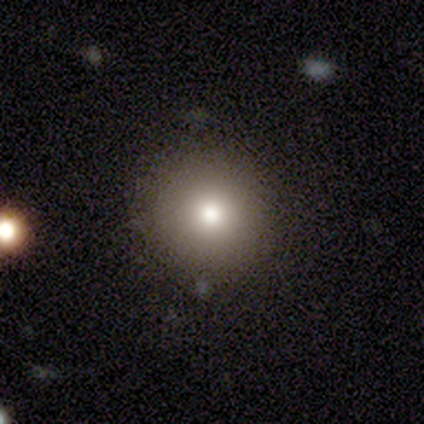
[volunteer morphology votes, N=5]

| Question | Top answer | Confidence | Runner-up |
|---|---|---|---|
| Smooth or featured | smooth | 80% | star or artifact (20%) |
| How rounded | round | 100% | — |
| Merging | none | 100% | — |